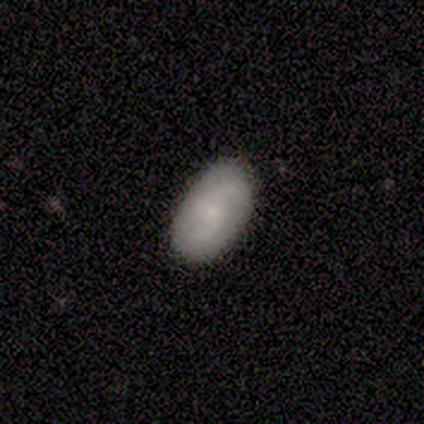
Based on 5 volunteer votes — This is likely a smooth galaxy (60%). How rounded: likely in between (67%). Merging: clearly none (80%).